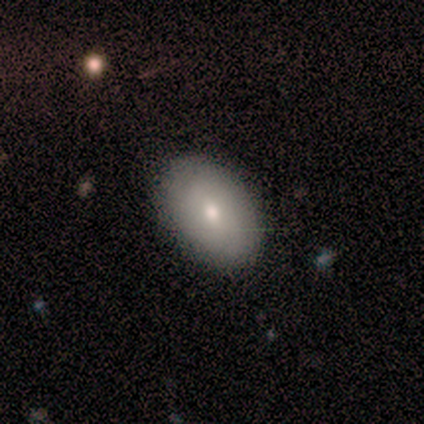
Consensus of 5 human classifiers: Q: Smooth or featured?
A: smooth (100%)
Q: How rounded?
A: in between (100%)
Q: Merging?
A: none (100%)